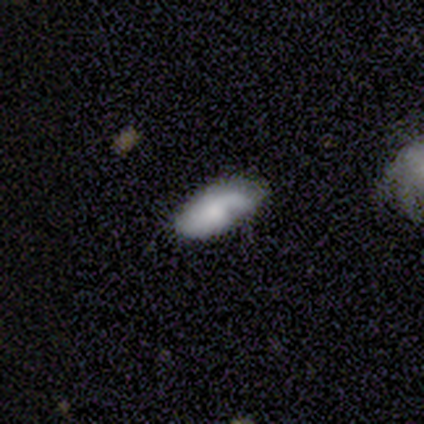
smooth_or_featured: smooth (p=0.60) [alt: featured or disk p=0.40]
how_rounded: in between (p=0.67) [alt: cigar-shaped p=0.33]
merging: none (p=0.40) [alt: minor disturbance p=0.20]